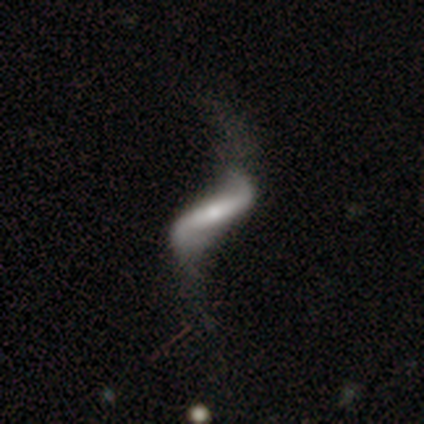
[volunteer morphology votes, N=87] Smooth or featured? featured or disk (89%)
Edge-on disk? no (78%)
Bar? strong (58%)
Spiral arms? yes (88%)
Spiral winding? loose (96%)
Spiral arm count? 2 (96%)
Bulge size? small (55%)
Merging? none (48%)